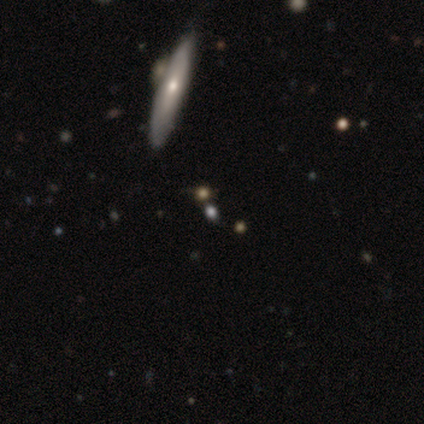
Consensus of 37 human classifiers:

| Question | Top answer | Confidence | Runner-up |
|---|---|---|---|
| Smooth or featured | smooth | 43% | featured or disk (35%) |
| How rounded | cigar-shaped | 50% | round (31%) |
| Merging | none | 72% | minor disturbance (14%) |